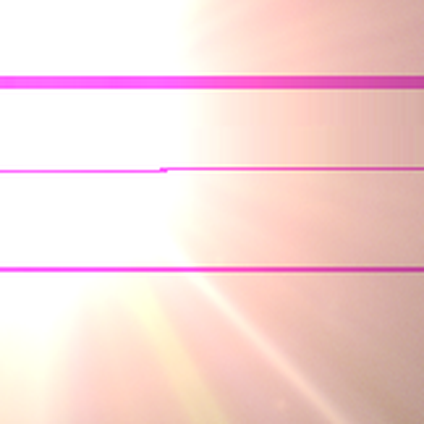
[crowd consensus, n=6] Consensus on every question: smooth or featured — star or artifact (100%).